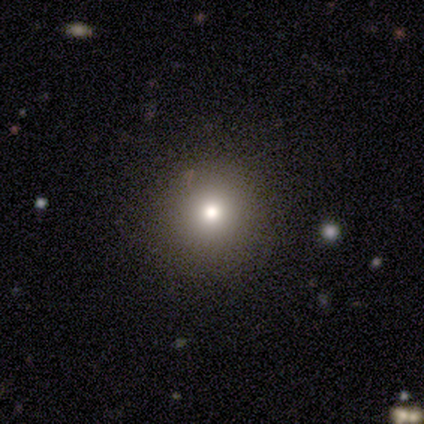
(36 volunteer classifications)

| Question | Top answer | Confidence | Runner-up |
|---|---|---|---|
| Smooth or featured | smooth | 81% | star or artifact (19%) |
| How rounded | round | 93% | in between (3%) |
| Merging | none | 86% | minor disturbance (7%) |